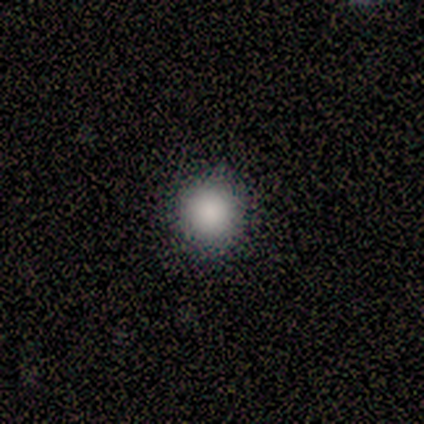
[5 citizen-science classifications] Morphology: type=smooth (80%); roundness=round (100%); merging=none (100%).